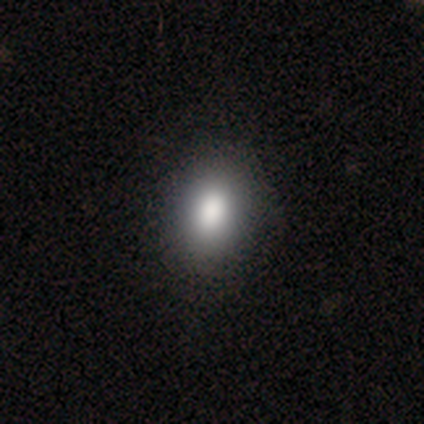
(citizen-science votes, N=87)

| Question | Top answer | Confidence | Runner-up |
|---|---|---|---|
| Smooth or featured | smooth | 86% | featured or disk (7%) |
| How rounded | in between | 80% | round (19%) |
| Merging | none | 88% | minor disturbance (12%) |